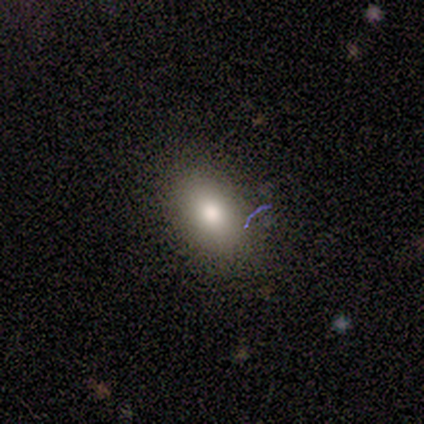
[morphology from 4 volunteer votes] smooth_or_featured: smooth (p=1.00)
how_rounded: in between (p=0.75) [alt: cigar-shaped p=0.25]
merging: none (p=0.75) [alt: minor disturbance p=0.25]